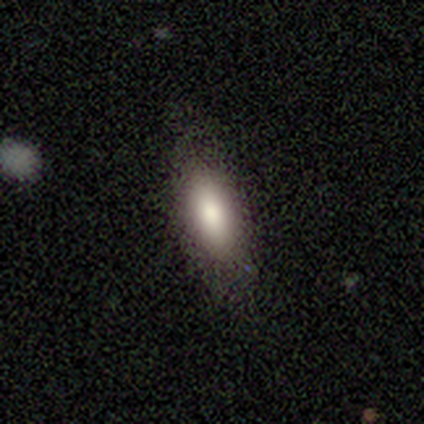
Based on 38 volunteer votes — A smooth galaxy with no disk features (71%) that is in between round and cigar-shaped (81%).

Vote fractions:
- Smooth or featured? smooth: 71% / featured or disk: 16% / star or artifact: 13%
- How rounded? in between: 81% / cigar-shaped: 15% / round: 4%
- Merging? none: 79% / minor disturbance: 18% / major disturbance: 3% / merger: 0%